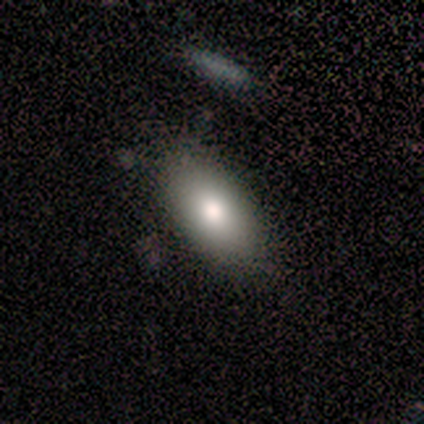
Smooth or featured?
  - smooth: 100% *
  - featured or disk: 0%
  - star or artifact: 0%
How rounded?
  - in between: 100% *
  - round: 0%
  - cigar-shaped: 0%
Merging?
  - none: 100% *
  - minor disturbance: 0%
  - major disturbance: 0%
  - merger: 0%